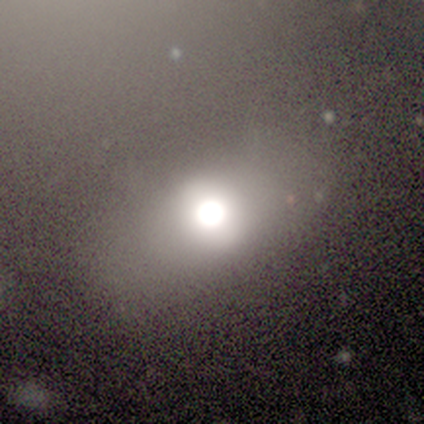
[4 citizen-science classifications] Smooth or featured?
  - smooth: 75% *
  - featured or disk: 25%
  - star or artifact: 0%
How rounded?
  - in between: 67% *
  - round: 33%
  - cigar-shaped: 0%
Merging?
  - none: 75% *
  - major disturbance: 25%
  - minor disturbance: 0%
  - merger: 0%